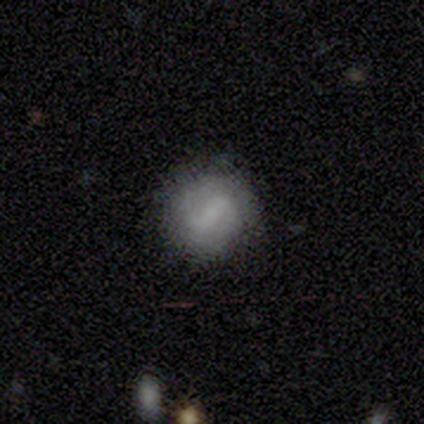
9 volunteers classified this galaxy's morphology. smooth-or-featured: featured or disk: 56% | smooth: 33% | star or artifact: 11%
  disk-edge-on: no: 100% | yes: 0%
    bar: strong: 40% (tied) | weak: 40% (tied) | no: 20%
    has-spiral-arms: yes: 80% | no: 20%
      spiral-winding: loose: 50% | tight: 25% | medium: 25%
      spiral-arm-count: 2: 100% | 1: 0% | 3: 0% | 4: 0% | more than 4: 0% | can't tell: 0%
    bulge-size: none: 100% | dominant: 0% | large: 0% | moderate: 0% | small: 0%
  merging: none: 88% | minor disturbance: 12% | major disturbance: 0% | merger: 0%